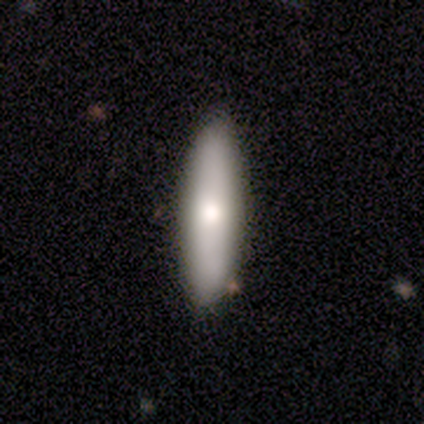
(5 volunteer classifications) smooth-or-featured: smooth: 100% | featured or disk: 0% | star or artifact: 0%
  how-rounded: cigar-shaped: 80% | in between: 20% | round: 0%
  merging: none: 100% | minor disturbance: 0% | major disturbance: 0% | merger: 0%